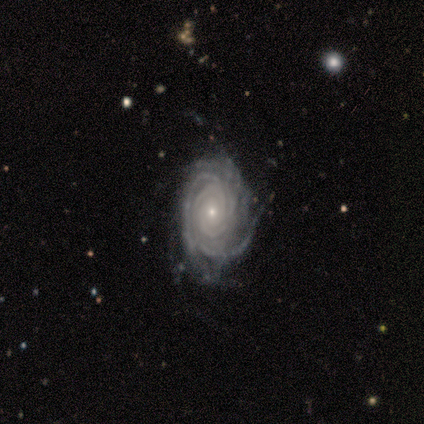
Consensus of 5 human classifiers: Q: Smooth or featured?
A: featured or disk (100%)
Q: Edge-on disk?
A: no (100%)
Q: Bar?
A: no (100%)
Q: Spiral arms?
A: yes (100%)
Q: Spiral winding?
A: tight (100%)
Q: Spiral arm count?
A: more than 4 (40%); tied with: can't tell (40%)
Q: Bulge size?
A: small (80%); runner-up: moderate (20%)
Q: Merging?
A: none (100%)